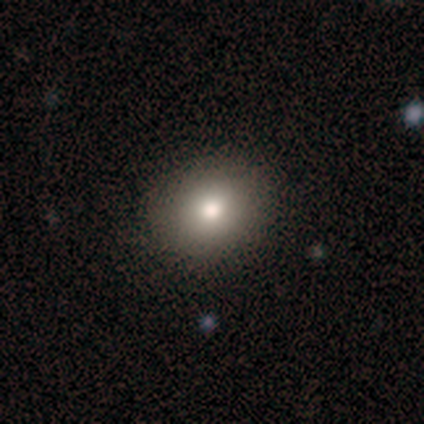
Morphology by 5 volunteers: A smooth galaxy with no disk features (40%, tied with star or artifact) that is round (100%).

Vote fractions:
- Smooth or featured? smooth: 40% (tied) / star or artifact: 40% (tied) / featured or disk: 20%
- How rounded? round: 100% / in between: 0% / cigar-shaped: 0%
- Merging? none: 67% / minor disturbance: 33% / major disturbance: 0% / merger: 0%